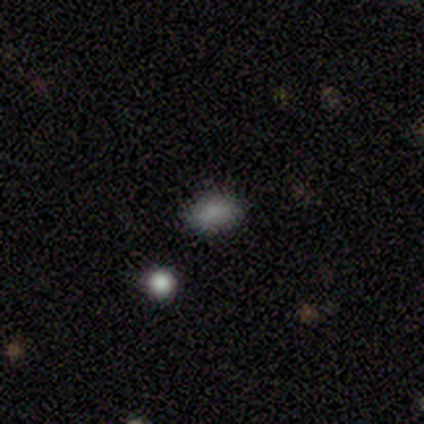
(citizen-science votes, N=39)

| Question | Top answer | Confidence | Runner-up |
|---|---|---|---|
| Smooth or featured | smooth | 87% | star or artifact (10%) |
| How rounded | in between | 82% | round (15%) |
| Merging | none | 83% | merger (11%) |